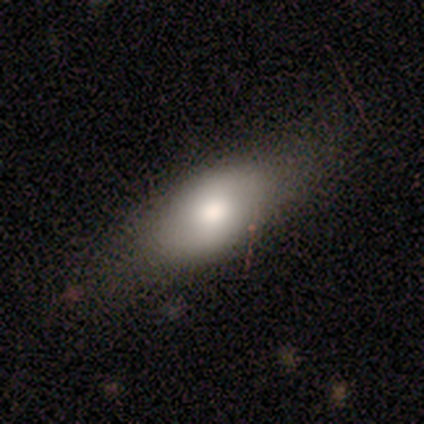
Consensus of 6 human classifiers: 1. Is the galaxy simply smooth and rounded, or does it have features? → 67% smooth, 33% featured or disk, 0% star or artifact.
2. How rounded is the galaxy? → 75% in between, 25% round, 0% cigar-shaped.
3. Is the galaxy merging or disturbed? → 83% none, 17% major disturbance, 0% minor disturbance, 0% merger.